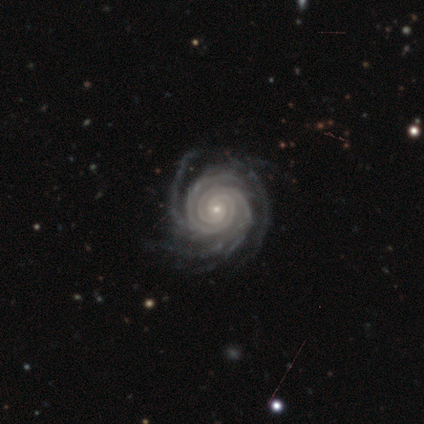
This appears to be a featured or disk galaxy (100%) with no bar (100%), 4 (67%) tight (100%) spiral arms (100%) and a small central bulge (100%). Merging: none (75%).